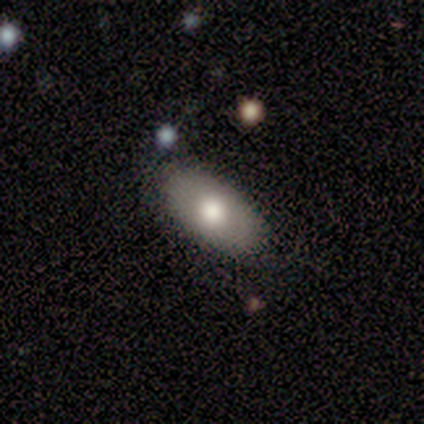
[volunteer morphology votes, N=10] Overall: smooth (90%). How rounded: in between (89%). Merging: none (78%).